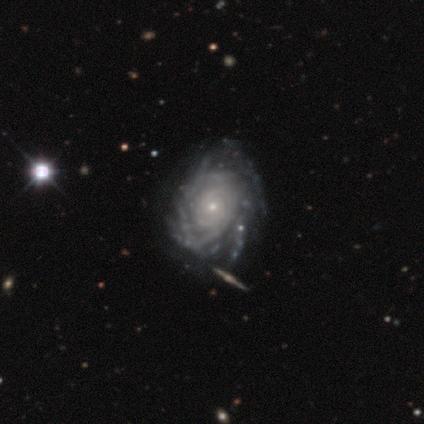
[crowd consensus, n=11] Overall: featured or disk (100%). Edge-on disk: no (100%). Bar: no (91%). Spiral arms: yes (91%). Spiral arm count: can't tell (50%; more than 4 40%). Spiral winding: tight (90%). Bulge size: small (73%). Merging: none (45%, tied with minor disturbance).